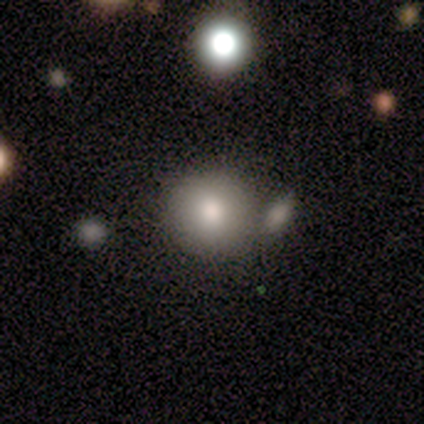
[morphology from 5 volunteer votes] A smooth galaxy with no disk features (100%) that is round (100%). Merging: none (60%).